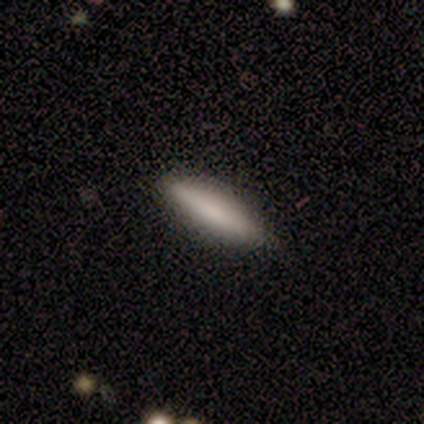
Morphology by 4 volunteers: Smooth or featured: smooth — 75% (featured or disk — 25%)
How rounded: in between — 67% (cigar-shaped — 33%)
Merging: none — 100%